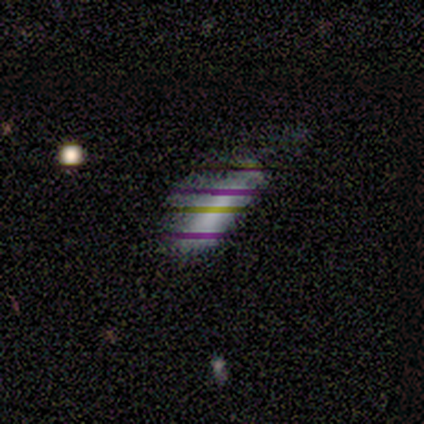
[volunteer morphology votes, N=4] This appears to be a smooth galaxy with no disk features (75%) that is cigar-shaped (67%). Merging: minor disturbance (67%).